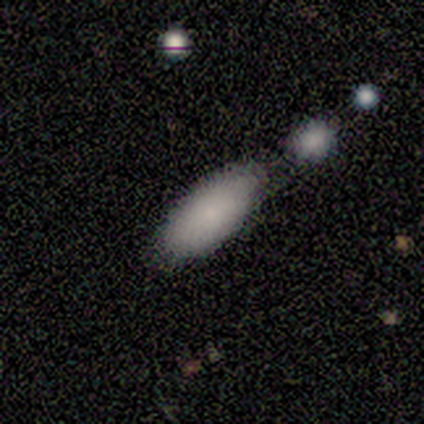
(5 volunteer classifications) A smooth galaxy with no disk features (100%) that is in between round and cigar-shaped (100%).

Vote fractions:
- Smooth or featured? smooth: 100% / featured or disk: 0% / star or artifact: 0%
- How rounded? in between: 100% / round: 0% / cigar-shaped: 0%
- Merging? none: 60% / merger: 40% / minor disturbance: 0% / major disturbance: 0%